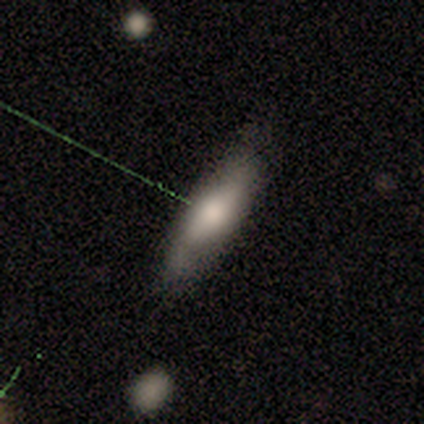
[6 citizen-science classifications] A featured or disk galaxy (83%) with no bar (100%), 2 (50%, tied with can't tell) medium (50%, tied with loose) spiral arms (67%) and a moderate central bulge (67%).

Vote fractions:
- Smooth or featured? featured or disk: 83% / smooth: 17% / star or artifact: 0%
- Edge-on disk? no: 60% / yes: 40%
- Bar? no: 100% / strong: 0% / weak: 0%
- Spiral arms? yes: 67% / no: 33%
- Spiral winding? medium: 50% (tied) / loose: 50% (tied) / tight: 0%
- Spiral arm count? 2: 50% (tied) / can't tell: 50% (tied) / 1: 0% / 3: 0% / 4: 0% / more than 4: 0%
- Bulge size? moderate: 67% / dominant: 33% / large: 0% / small: 0% / none: 0%
- Merging? none: 67% / minor disturbance: 33% / major disturbance: 0% / merger: 0%